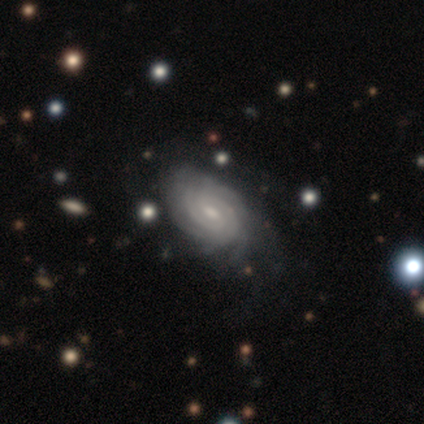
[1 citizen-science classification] A smooth galaxy with no disk features (100%) that is in between round and cigar-shaped (100%). Merging: minor disturbance (100%).